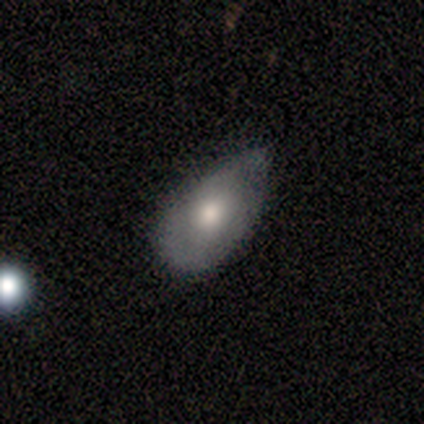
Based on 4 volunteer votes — A smooth galaxy with no disk features (75%) that is in between round and cigar-shaped (100%).

Vote fractions:
- Smooth or featured? smooth: 75% / featured or disk: 25% / star or artifact: 0%
- How rounded? in between: 100% / round: 0% / cigar-shaped: 0%
- Merging? minor disturbance: 75% / none: 25% / major disturbance: 0% / merger: 0%